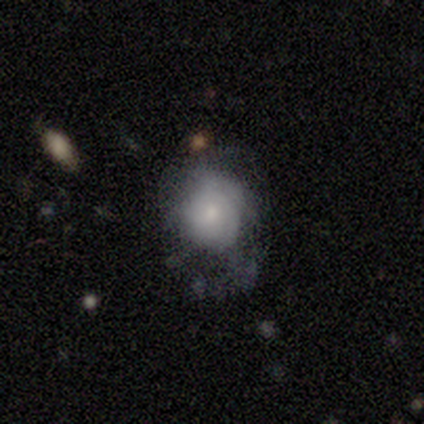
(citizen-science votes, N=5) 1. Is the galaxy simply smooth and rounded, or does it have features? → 60% featured or disk, 20% smooth, 20% star or artifact.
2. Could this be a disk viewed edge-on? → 100% no, 0% yes.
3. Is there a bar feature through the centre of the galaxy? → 67% no, 33% weak, 0% strong.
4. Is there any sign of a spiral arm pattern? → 100% yes, 0% no.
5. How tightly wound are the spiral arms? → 100% tight, 0% medium, 0% loose.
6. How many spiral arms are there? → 67% can't tell, 33% 1, 0% 2, 0% 3, 0% 4, 0% more than 4.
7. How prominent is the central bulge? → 67% small, 33% moderate, 0% dominant, 0% large, 0% none.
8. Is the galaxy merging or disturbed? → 50% minor disturbance, 25% none, 25% major disturbance, 0% merger.